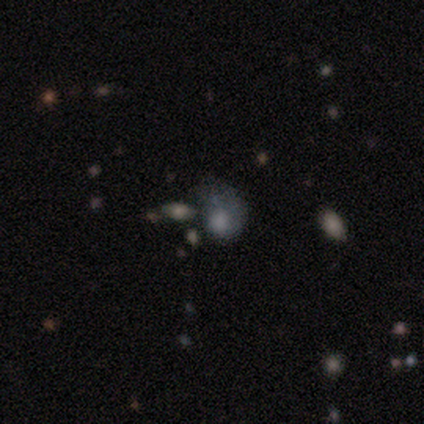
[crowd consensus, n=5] A smooth galaxy with no disk features (60%) that is round (67%).

Vote fractions:
- Smooth or featured? smooth: 60% / featured or disk: 20% / star or artifact: 20%
- How rounded? round: 67% / in between: 33% / cigar-shaped: 0%
- Merging? major disturbance: 75% / none: 25% / minor disturbance: 0% / merger: 0%